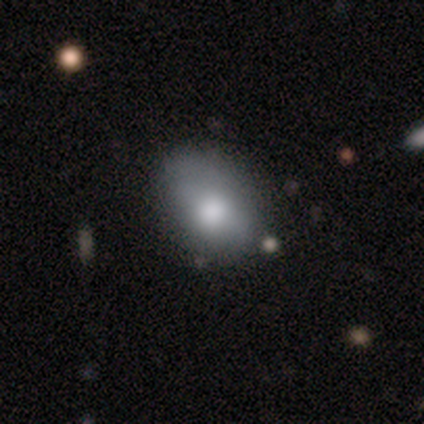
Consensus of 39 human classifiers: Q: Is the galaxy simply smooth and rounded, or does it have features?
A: smooth — 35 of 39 (90%).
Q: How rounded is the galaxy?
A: in between — 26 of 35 (74%).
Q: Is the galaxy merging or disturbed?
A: none — 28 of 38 (74%).